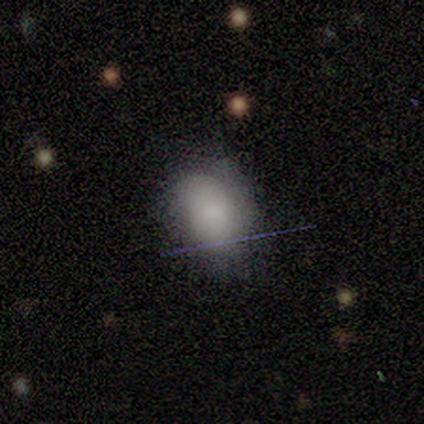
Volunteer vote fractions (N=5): Morphology: type=smooth (100%); roundness=in between (100%); merging=minor disturbance (60%).